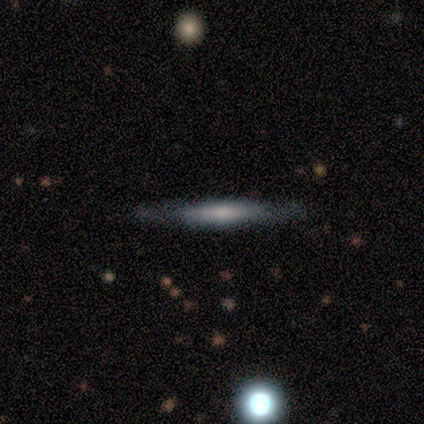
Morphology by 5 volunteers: Smooth or featured? featured or disk (60%)
Edge-on disk? yes (67%)
Edge-on bulge? none (50%, tied with rounded)
Merging? none (80%)